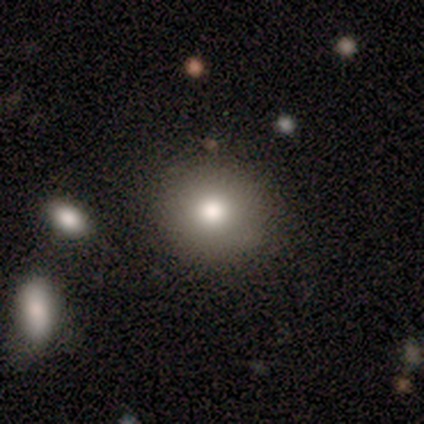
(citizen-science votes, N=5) This is clearly a smooth galaxy (100%). How rounded: clearly round (100%). Merging: clearly none (100%).